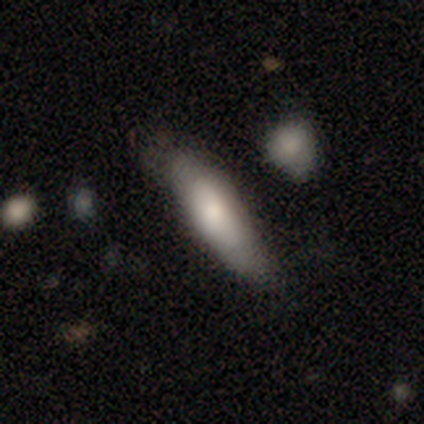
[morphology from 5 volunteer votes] This is likely a smooth galaxy (60%). How rounded: likely cigar-shaped (67%). Merging: clearly none (80%).